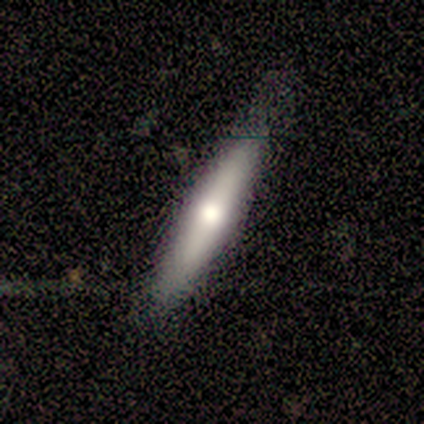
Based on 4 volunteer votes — Smooth or featured?
  - smooth: 50% *
  - featured or disk: 25%
  - star or artifact: 25%
How rounded?
  - in between: 50% * (tied)
  - cigar-shaped: 50% * (tied)
  - round: 0%
Merging?
  - none: 100% *
  - minor disturbance: 0%
  - major disturbance: 0%
  - merger: 0%